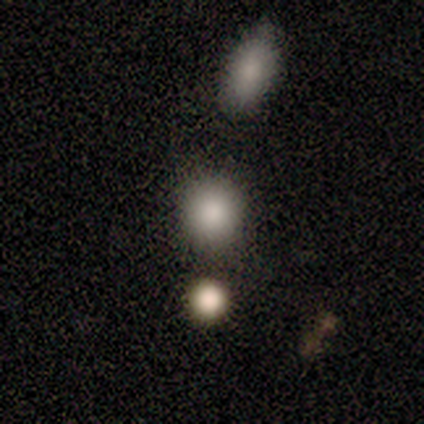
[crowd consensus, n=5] Smooth or featured? smooth (100%)
How rounded? round (80%)
Merging? none (60%)